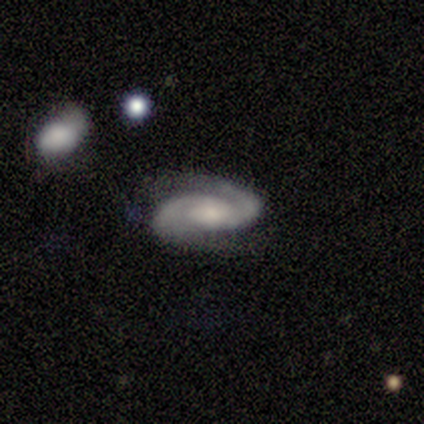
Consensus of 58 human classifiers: Smooth or featured: featured or disk — 90% (star or artifact — 7%)
Edge-on disk: no — 100%
Bar: no — 52% (weak — 44%)
Spiral arms: yes — 98% (no — 2%)
Spiral winding: medium — 45% (tight — 37%)
Spiral arm count: 2 — 98% (can't tell — 2%)
Bulge size: moderate — 40% (small — 37%)
Merging: none — 57% (minor disturbance — 22%)